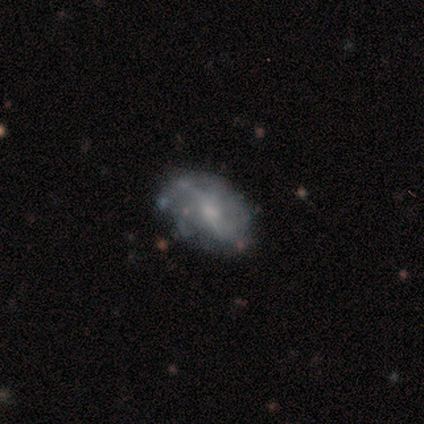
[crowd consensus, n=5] smooth-or-featured: smooth: 60% | featured or disk: 20% | star or artifact: 20%
  how-rounded: in between: 100% | round: 0% | cigar-shaped: 0%
  merging: none: 50% | minor disturbance: 25% | major disturbance: 25% | merger: 0%